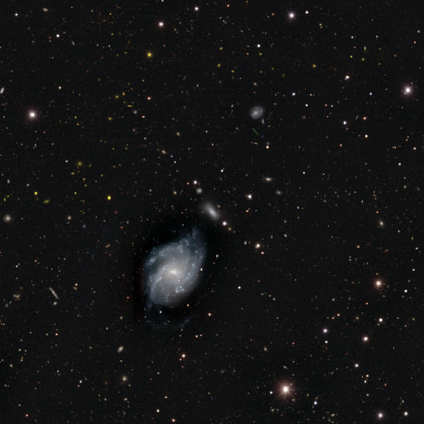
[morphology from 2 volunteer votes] smooth-or-featured: smooth: 50% (tied) | featured or disk: 50% (tied) | star or artifact: 0%
  how-rounded: cigar-shaped: 100% | round: 0% | in between: 0%
  merging: none: 100% | minor disturbance: 0% | major disturbance: 0% | merger: 0%